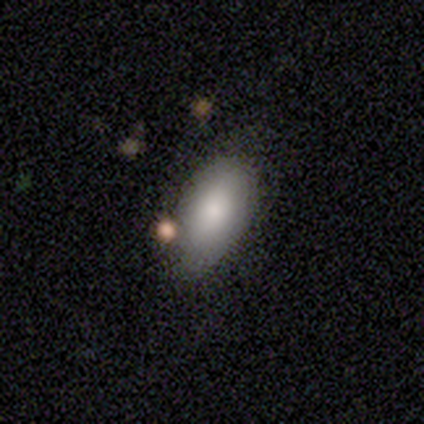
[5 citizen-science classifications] Smooth or featured? smooth (60%)
How rounded? in between (100%)
Merging? none (60%)